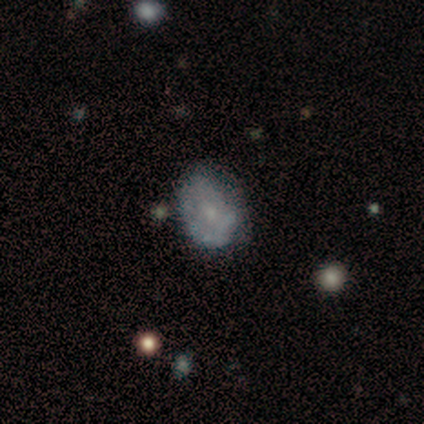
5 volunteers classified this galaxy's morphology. This appears to be a featured or disk galaxy (80%) with no bar (75%), no spiral arms (75%) and a moderate central bulge (50%, tied with small). Merging: none (40%).